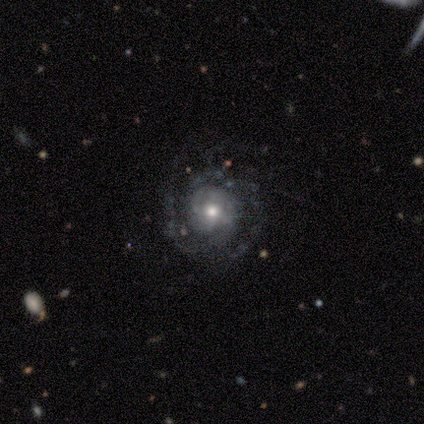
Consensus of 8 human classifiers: Overall: featured or disk (100%). Edge-on disk: no (88%). Bar: no (71%). Spiral arms: yes (100%). Spiral arm count: 2 (43%, tied with can't tell). Spiral winding: tight (71%). Bulge size: moderate (86%). Merging: none (75%).